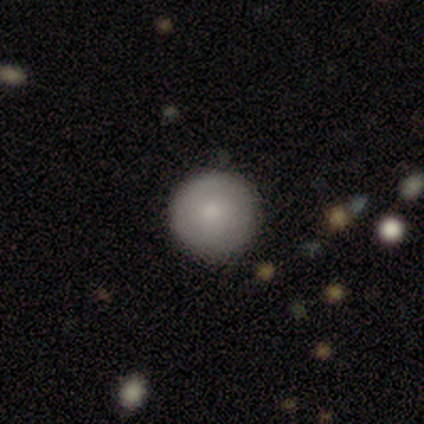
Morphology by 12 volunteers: Smooth or featured? smooth (92%)
How rounded? round (100%)
Merging? none (83%)